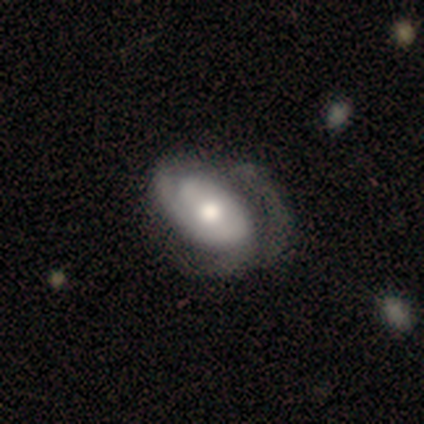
A featured or disk galaxy (80%) with no bar (100%), tight (67%) spiral arms (75%) and a moderate central bulge (100%). Merging: minor disturbance (60%).